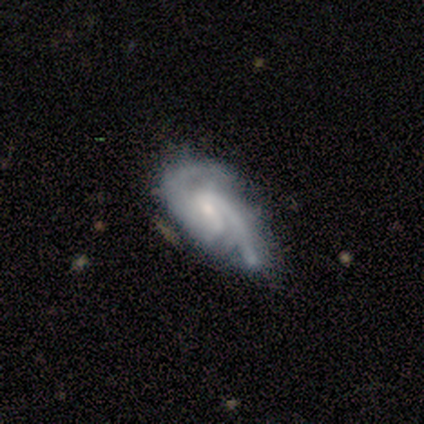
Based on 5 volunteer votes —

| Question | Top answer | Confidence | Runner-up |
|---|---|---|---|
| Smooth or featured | featured or disk | 80% | smooth (20%) |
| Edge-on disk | no | 100% | — |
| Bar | weak | 75% | no (25%) |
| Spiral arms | yes | 100% | — |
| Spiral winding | loose | 100% | — |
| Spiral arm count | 2 | 50% | 1 (25%) |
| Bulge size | moderate | 50% | tied: small (50%) |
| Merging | minor disturbance | 80% | none (20%) |